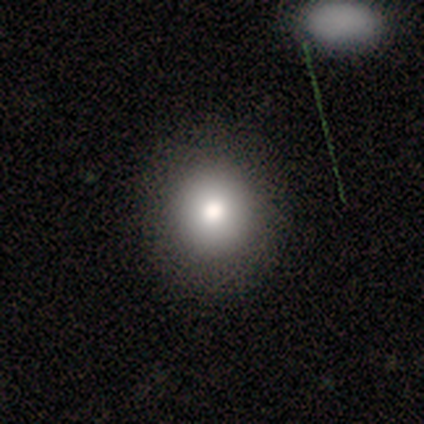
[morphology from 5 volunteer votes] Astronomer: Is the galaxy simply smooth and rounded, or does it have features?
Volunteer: smooth — 80%.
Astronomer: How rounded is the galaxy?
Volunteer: round — 75%.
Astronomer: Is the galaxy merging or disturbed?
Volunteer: none — 80%.